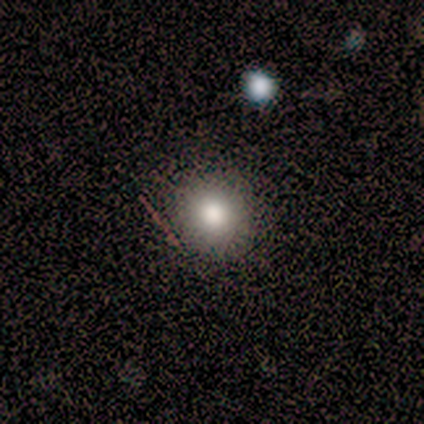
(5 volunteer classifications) smooth 80%, star or artifact 20%, featured or disk 0%. Down the decision tree: how rounded — round (100%); merging — none (100%).